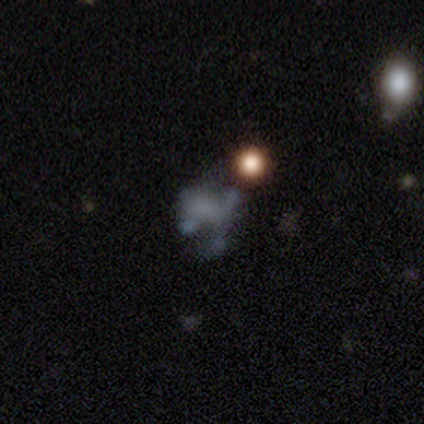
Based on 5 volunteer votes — Smooth or featured?
  - smooth: 40% * (tied)
  - star or artifact: 40% * (tied)
  - featured or disk: 20%
How rounded?
  - round: 50% * (tied)
  - in between: 50% * (tied)
  - cigar-shaped: 0%
Merging?
  - none: 67% *
  - minor disturbance: 33%
  - major disturbance: 0%
  - merger: 0%